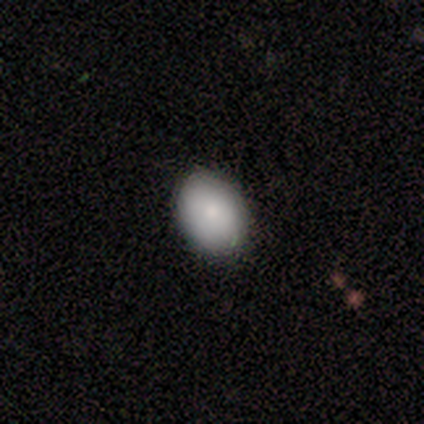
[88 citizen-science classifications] smooth-or-featured: smooth: 82% | featured or disk: 9% | star or artifact: 9%
  how-rounded: in between: 75% | round: 25% | cigar-shaped: 0%
  merging: none: 90% | minor disturbance: 9% | merger: 1% | major disturbance: 0%